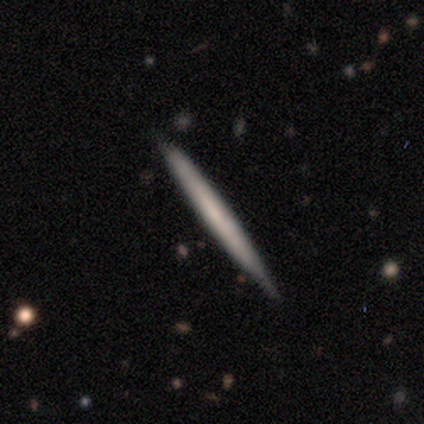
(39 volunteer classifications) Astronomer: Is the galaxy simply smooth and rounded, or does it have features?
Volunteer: featured or disk — 54% (runner-up: smooth, 46%).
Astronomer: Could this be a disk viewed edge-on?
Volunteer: yes — 90%.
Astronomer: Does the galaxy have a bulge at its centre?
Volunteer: none — 89%.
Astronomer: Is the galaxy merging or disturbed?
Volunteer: none — 85%.